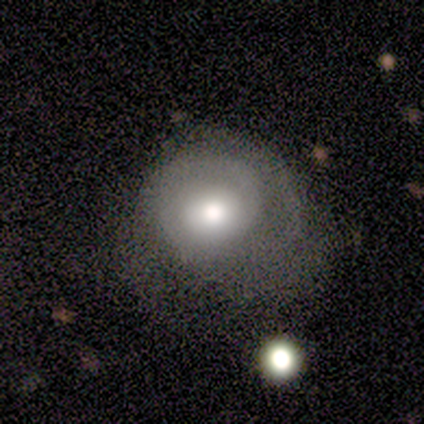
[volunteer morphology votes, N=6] Smooth or featured?
  - smooth: 50% * (tied)
  - featured or disk: 50% * (tied)
  - star or artifact: 0%
How rounded?
  - round: 100% *
  - in between: 0%
  - cigar-shaped: 0%
Merging?
  - minor disturbance: 67% *
  - none: 33%
  - major disturbance: 0%
  - merger: 0%